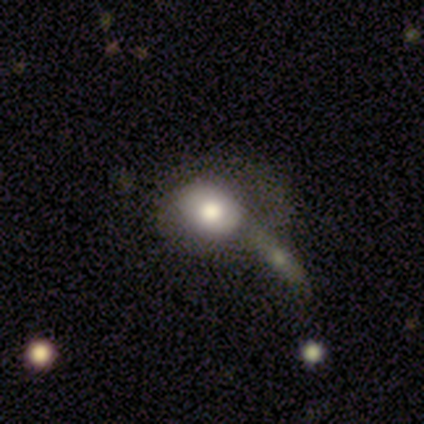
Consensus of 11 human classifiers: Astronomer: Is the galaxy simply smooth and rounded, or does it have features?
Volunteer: smooth — 55%.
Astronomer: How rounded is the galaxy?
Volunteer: round — 67%.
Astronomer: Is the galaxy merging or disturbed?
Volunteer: merger — 56%.